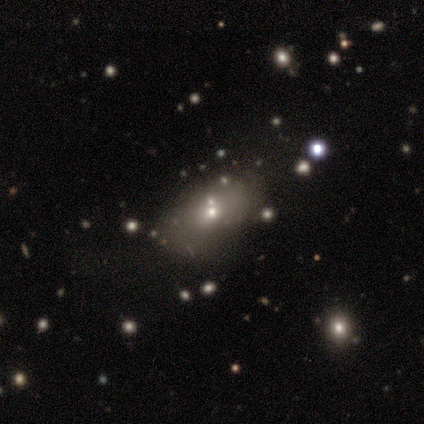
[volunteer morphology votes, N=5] A smooth galaxy with no disk features (60%) that is in between round and cigar-shaped (67%). Merging: none (40%).